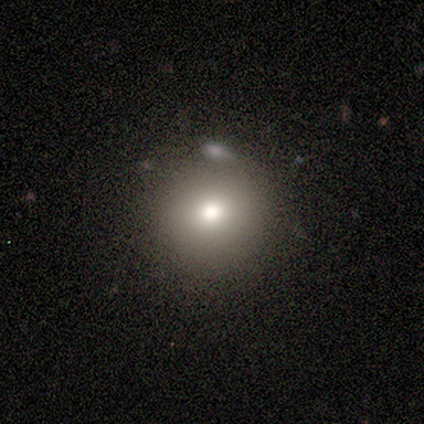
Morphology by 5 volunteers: Overall: smooth (80%). How rounded: round (75%). Merging: none (75%).